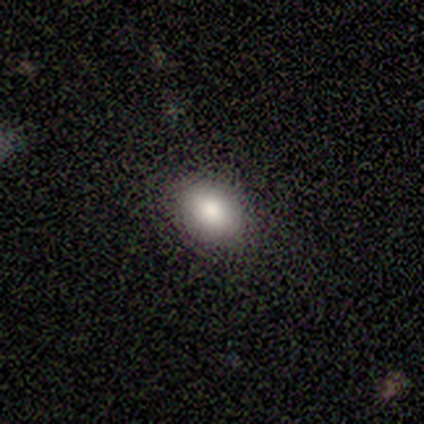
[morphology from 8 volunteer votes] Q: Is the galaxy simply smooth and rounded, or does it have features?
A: smooth — 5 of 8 (62%).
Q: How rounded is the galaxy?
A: in between — 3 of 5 (60%).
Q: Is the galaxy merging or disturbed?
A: none — 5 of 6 (83%).